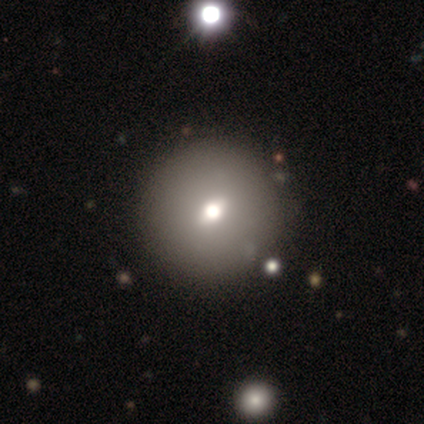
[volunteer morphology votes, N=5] Smooth or featured? featured or disk (80%)
Edge-on disk? no (75%)
Bar? weak (67%)
Spiral arms? no (100%)
Bulge size? small (67%)
Merging? none (100%)